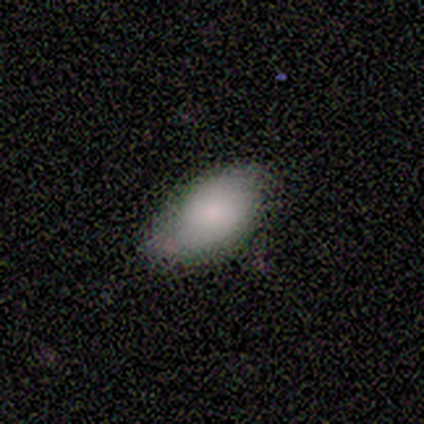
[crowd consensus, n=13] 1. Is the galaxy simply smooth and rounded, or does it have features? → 85% smooth, 8% featured or disk, 8% star or artifact.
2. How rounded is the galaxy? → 100% in between, 0% round, 0% cigar-shaped.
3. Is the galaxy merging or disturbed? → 58% none, 42% minor disturbance, 0% major disturbance, 0% merger.